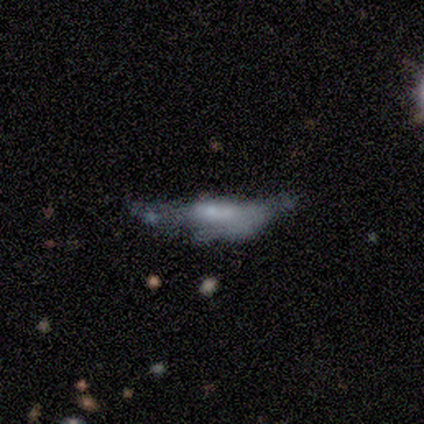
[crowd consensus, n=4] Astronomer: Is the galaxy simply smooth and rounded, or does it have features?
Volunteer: smooth — 100%.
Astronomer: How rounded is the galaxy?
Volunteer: cigar-shaped — 100%.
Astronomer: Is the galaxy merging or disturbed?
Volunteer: major disturbance — 75%.